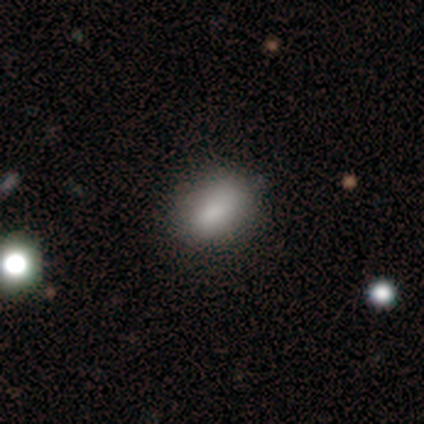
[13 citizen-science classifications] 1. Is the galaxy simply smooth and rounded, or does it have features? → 85% smooth, 8% featured or disk, 8% star or artifact.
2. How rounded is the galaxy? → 73% in between, 18% round, 9% cigar-shaped.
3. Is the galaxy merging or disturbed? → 67% none, 17% minor disturbance, 17% major disturbance, 0% merger.